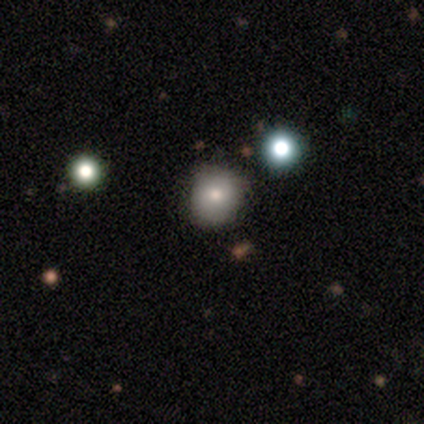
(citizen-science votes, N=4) Smooth or featured: smooth — 100%
How rounded: round — 50% (tied with in between — 50%)
Merging: none — 75% (major disturbance — 25%)